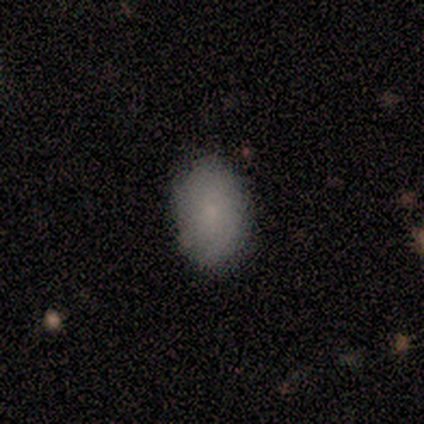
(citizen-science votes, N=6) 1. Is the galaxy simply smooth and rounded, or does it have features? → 100% smooth, 0% featured or disk, 0% star or artifact.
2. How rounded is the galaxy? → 100% in between, 0% round, 0% cigar-shaped.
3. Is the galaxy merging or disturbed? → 83% none, 17% major disturbance, 0% minor disturbance, 0% merger.